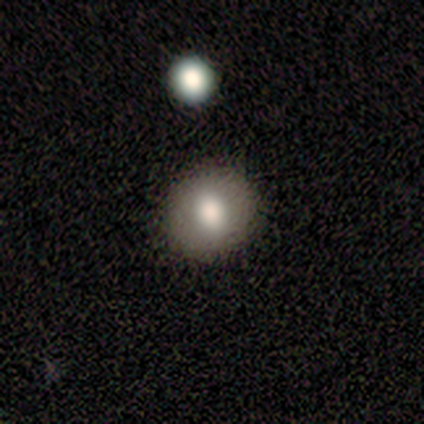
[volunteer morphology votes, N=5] Smooth or featured: smooth — 80% (star or artifact — 20%)
How rounded: round — 75% (in between — 25%)
Merging: none — 100%